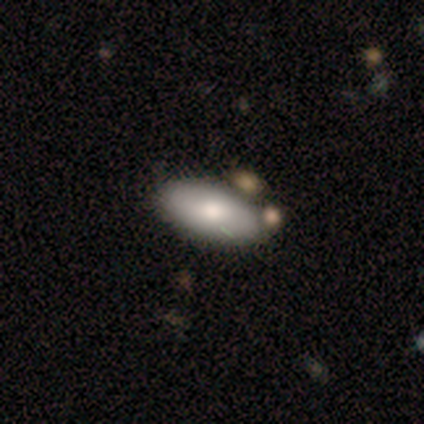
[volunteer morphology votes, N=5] Q: Smooth or featured?
A: smooth (80%); runner-up: featured or disk (20%)
Q: How rounded?
A: in between (100%)
Q: Merging?
A: none (60%); runner-up: minor disturbance (40%)